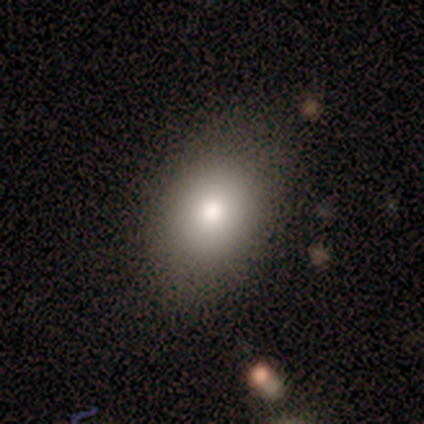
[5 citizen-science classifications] This appears to be a smooth galaxy with no disk features (100%) that is in between round and cigar-shaped (100%). Merging: none (100%).